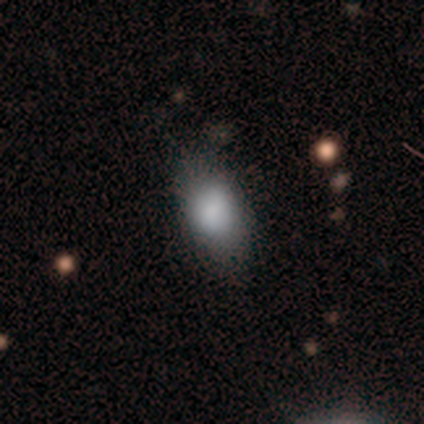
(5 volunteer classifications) Smooth or featured? smooth (100%)
How rounded? in between (60%)
Merging? none (100%)